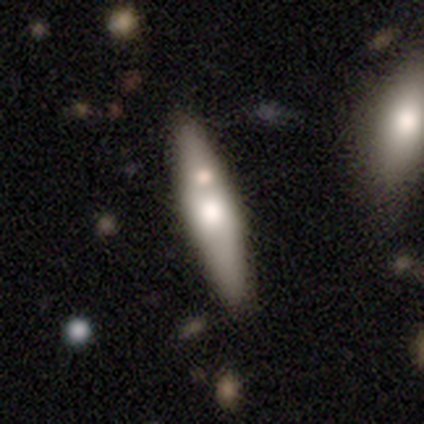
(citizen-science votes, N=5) Smooth or featured?
  - featured or disk: 60% *
  - smooth: 40%
  - star or artifact: 0%
Edge-on disk?
  - yes: 67% *
  - no: 33%
Edge-on bulge?
  - rounded: 100% *
  - boxy: 0%
  - none: 0%
Merging?
  - none: 80% *
  - minor disturbance: 20%
  - major disturbance: 0%
  - merger: 0%